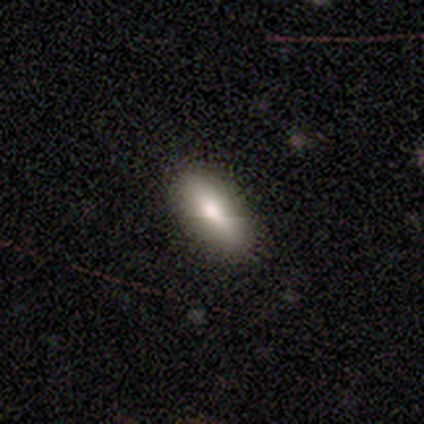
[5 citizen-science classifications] smooth_or_featured: smooth (p=1.00)
how_rounded: in between (p=1.00)
merging: none (p=0.80) [alt: minor disturbance p=0.20]